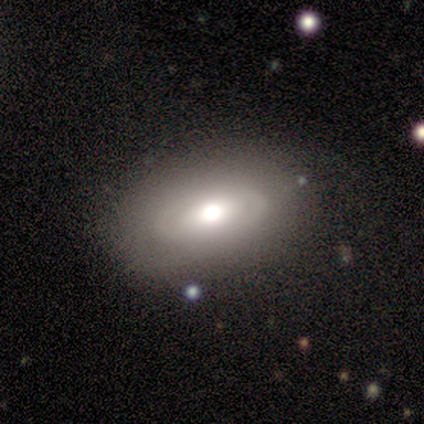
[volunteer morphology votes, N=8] A featured or disk galaxy (75%) with a weak bar (50%, tied with no), no spiral arms (67%) and a moderate central bulge (83%). Merging: none (88%).